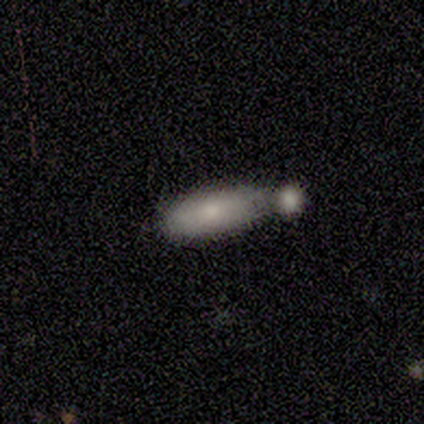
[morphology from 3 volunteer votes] smooth-or-featured: smooth: 67% | featured or disk: 33% | star or artifact: 0%
  how-rounded: in between: 50% (tied) | cigar-shaped: 50% (tied) | round: 0%
  merging: merger: 67% | none: 33% | minor disturbance: 0% | major disturbance: 0%